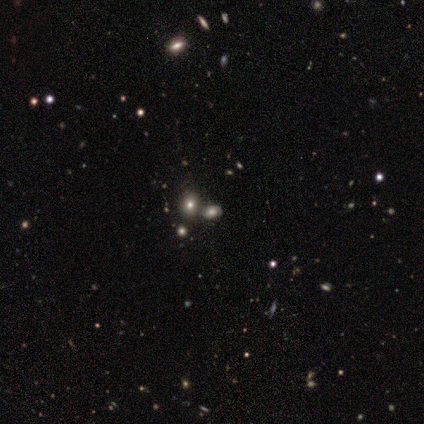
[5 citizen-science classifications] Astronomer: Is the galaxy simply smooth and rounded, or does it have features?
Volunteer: smooth — 80%.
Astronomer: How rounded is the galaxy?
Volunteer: in between — 100%.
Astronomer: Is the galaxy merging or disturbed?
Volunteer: none — 75%.